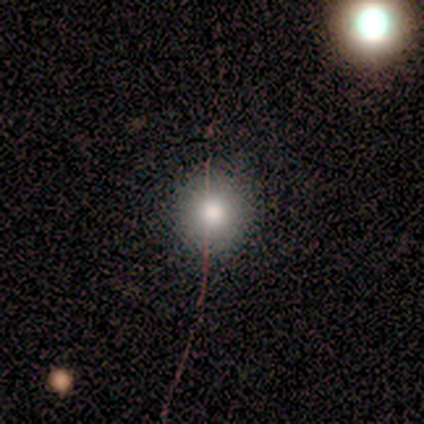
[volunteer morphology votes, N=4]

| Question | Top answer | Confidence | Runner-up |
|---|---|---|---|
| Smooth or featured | smooth | 75% | star or artifact (25%) |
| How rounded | round | 100% | — |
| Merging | none | 100% | — |